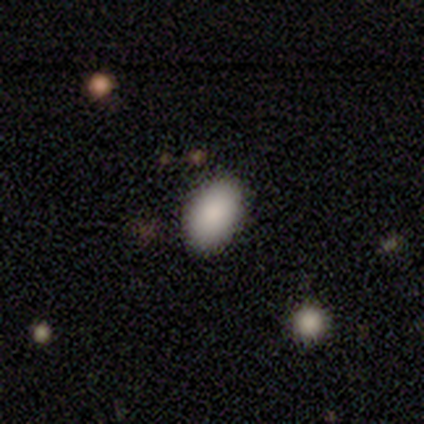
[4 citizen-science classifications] This is clearly a smooth galaxy (100%). How rounded: clearly in between (100%). Merging: likely none (75%).